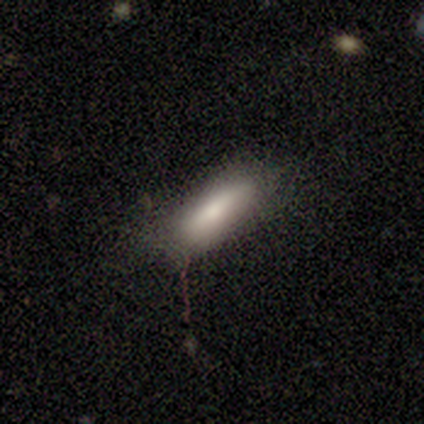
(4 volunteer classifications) A smooth galaxy with no disk features (50%, tied with featured or disk) that is in between round and cigar-shaped (100%).

Vote fractions:
- Smooth or featured? smooth: 50% (tied) / featured or disk: 50% (tied) / star or artifact: 0%
- How rounded? in between: 100% / round: 0% / cigar-shaped: 0%
- Merging? none: 75% / minor disturbance: 25% / major disturbance: 0% / merger: 0%